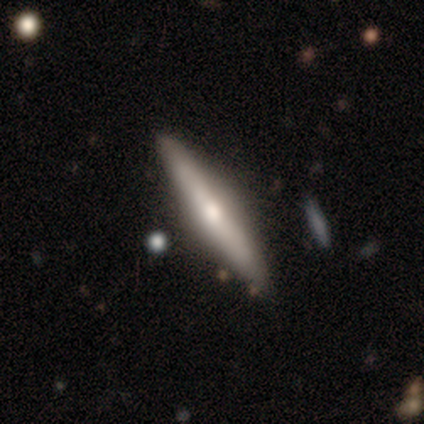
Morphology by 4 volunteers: type=smooth (75%); roundness=cigar-shaped (100%); merging=none (100%).